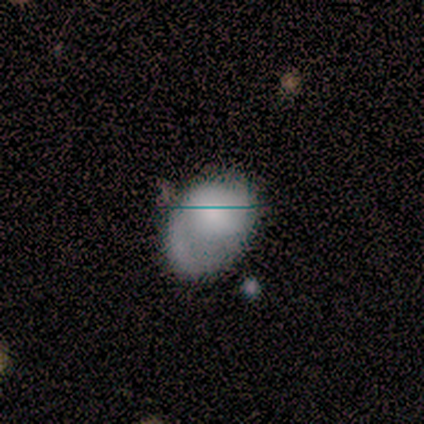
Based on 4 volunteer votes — Smooth or featured?
  - featured or disk: 75% *
  - star or artifact: 25%
  - smooth: 0%
Edge-on disk?
  - no: 100% *
  - yes: 0%
Bar?
  - weak: 67% *
  - no: 33%
  - strong: 0%
Spiral arms?
  - yes: 100% *
  - no: 0%
Spiral winding?
  - loose: 67% *
  - medium: 33%
  - tight: 0%
Spiral arm count?
  - 2: 67% *
  - 1: 33%
  - 3: 0%
  - 4: 0%
  - more than 4: 0%
  - can't tell: 0%
Bulge size?
  - large: 33% * (tied)
  - moderate: 33% * (tied)
  - small: 33% * (tied)
  - dominant: 0%
  - none: 0%
Merging?
  - none: 33% * (tied)
  - minor disturbance: 33% * (tied)
  - major disturbance: 33% * (tied)
  - merger: 0%